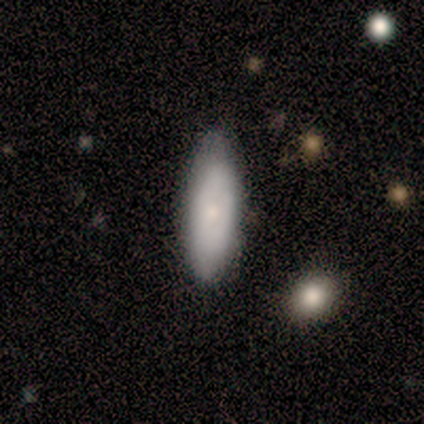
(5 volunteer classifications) Morphology: type=smooth (80%); roundness=in between (50%, tied with cigar-shaped); merging=none (60%).